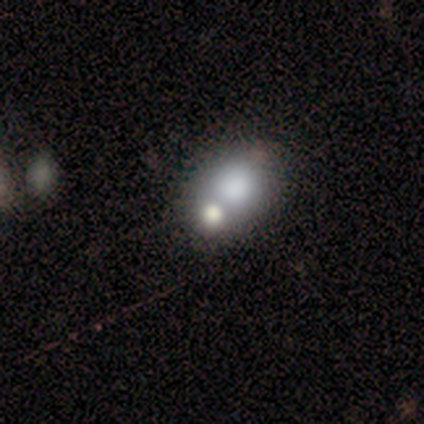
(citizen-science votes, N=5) This is clearly a smooth galaxy (80%). How rounded: likely in between (75%). Merging: likely merger (60%).